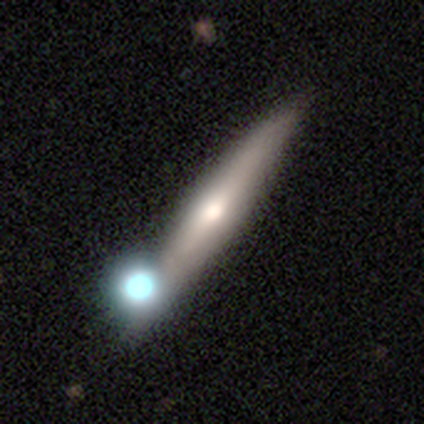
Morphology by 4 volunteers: Smooth or featured? 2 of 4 (50%, tied with featured or disk) said smooth. How rounded? 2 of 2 (100%) said cigar-shaped. Merging? 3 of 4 (75%) said none.